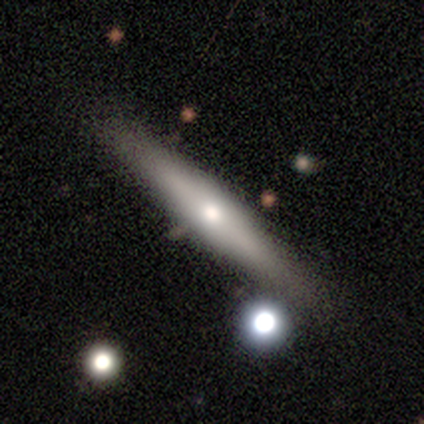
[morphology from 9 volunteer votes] smooth 56%, featured or disk 44%, star or artifact 0%. Down the decision tree: how rounded — cigar-shaped (100%); merging — none (67%).